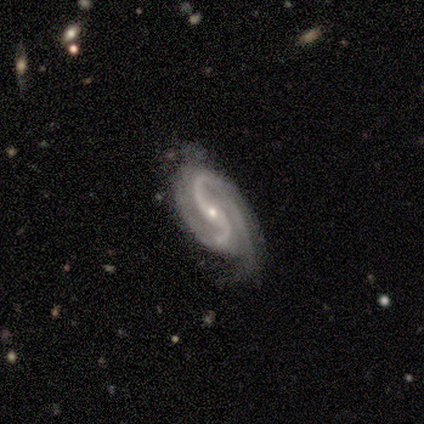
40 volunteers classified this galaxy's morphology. Overall: featured or disk (92%). Edge-on disk: no (97%). Bar: no (44%; weak 36%). Spiral arms: yes (100%). Spiral arm count: 2 (81%). Spiral winding: medium (47%; tight 28%). Bulge size: small (69%; moderate 31%). Merging: none (50%; minor disturbance 34%).